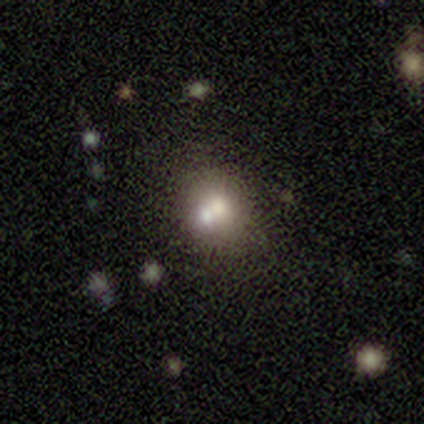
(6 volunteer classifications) A smooth galaxy with no disk features (50%) that is round (67%).

Vote fractions:
- Smooth or featured? smooth: 50% / star or artifact: 33% / featured or disk: 17%
- How rounded? round: 67% / in between: 33% / cigar-shaped: 0%
- Merging? none: 50% (tied) / merger: 50% (tied) / minor disturbance: 0% / major disturbance: 0%